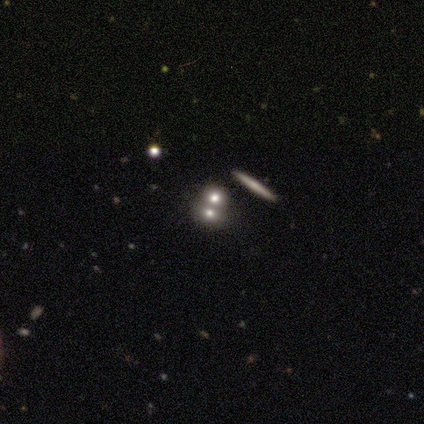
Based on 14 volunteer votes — smooth 43% (tied), featured or disk 43% (tied), star or artifact 14%. Down the decision tree: how rounded — round (67%); merging — none (42%, tied with merger).